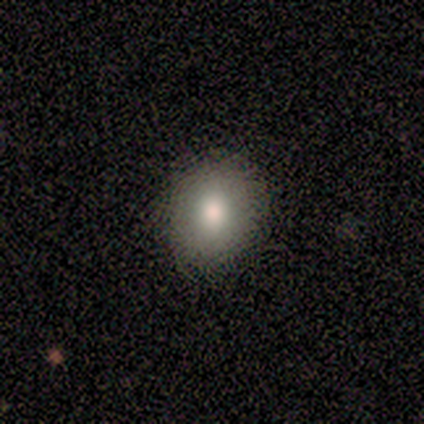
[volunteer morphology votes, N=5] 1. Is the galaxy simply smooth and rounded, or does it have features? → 80% smooth, 20% featured or disk, 0% star or artifact.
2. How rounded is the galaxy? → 100% round, 0% in between, 0% cigar-shaped.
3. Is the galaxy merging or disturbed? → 80% none, 20% minor disturbance, 0% major disturbance, 0% merger.